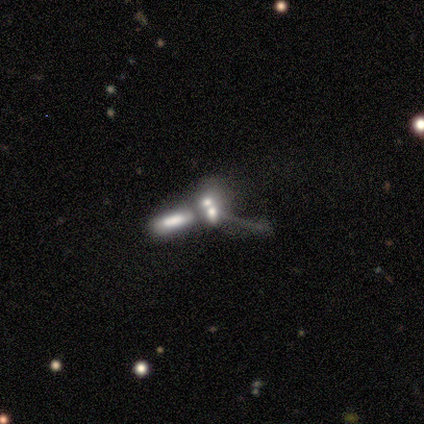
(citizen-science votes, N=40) A smooth galaxy with no disk features (42%) that is in between round and cigar-shaped (59%).

Vote fractions:
- Smooth or featured? smooth: 42% / featured or disk: 40% / star or artifact: 18%
- How rounded? in between: 59% / cigar-shaped: 24% / round: 18%
- Merging? merger: 82% / none: 9% / major disturbance: 9% / minor disturbance: 0%